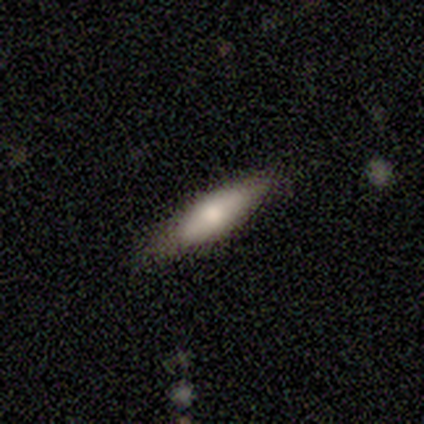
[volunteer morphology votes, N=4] Smooth or featured: smooth — 75% (featured or disk — 25%)
How rounded: cigar-shaped — 100%
Merging: none — 75% (minor disturbance — 25%)